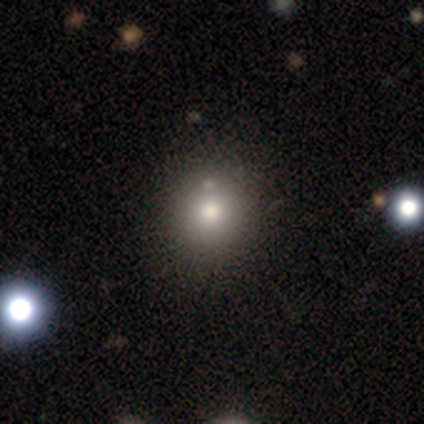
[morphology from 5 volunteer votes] Smooth or featured?
  - smooth: 80% *
  - featured or disk: 20%
  - star or artifact: 0%
How rounded?
  - round: 100% *
  - in between: 0%
  - cigar-shaped: 0%
Merging?
  - none: 100% *
  - minor disturbance: 0%
  - major disturbance: 0%
  - merger: 0%